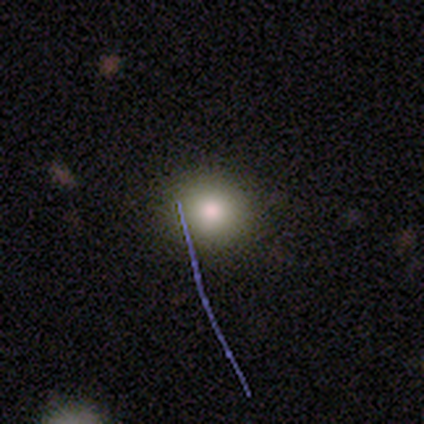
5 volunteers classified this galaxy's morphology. Overall: smooth (60%; featured or disk 20%). How rounded: round (100%). Merging: none (75%).